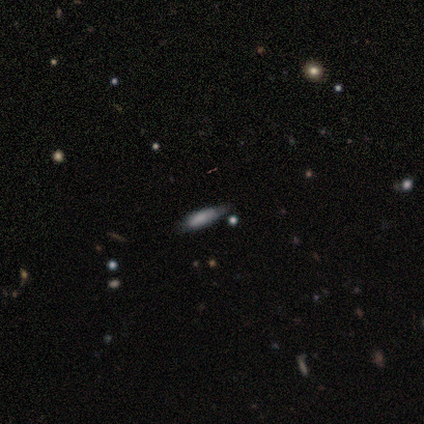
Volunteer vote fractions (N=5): smooth 100%, featured or disk 0%, star or artifact 0%. Down the decision tree: how rounded — cigar-shaped (80%); merging — none (60%).